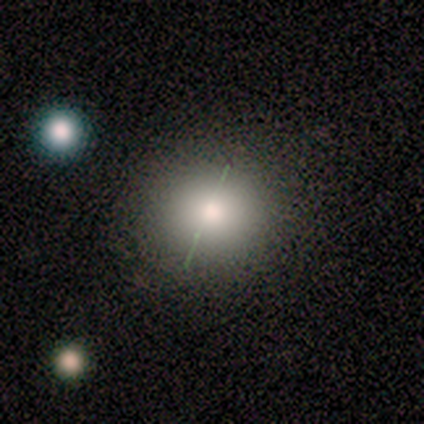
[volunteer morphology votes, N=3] Smooth or featured: smooth — 33% (tied with featured or disk — 33%; star or artifact — 33%)
How rounded: round — 100%
Merging: none — 50% (tied with minor disturbance — 50%)